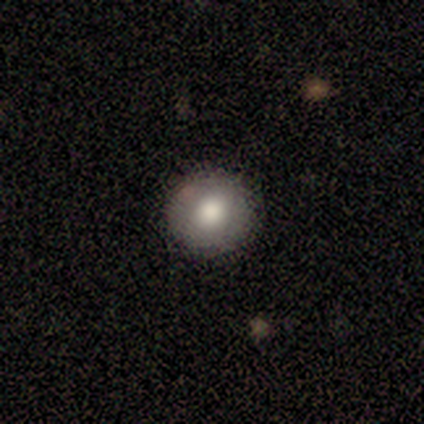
Smooth or featured? smooth (80%)
How rounded? round (100%)
Merging? none (100%)